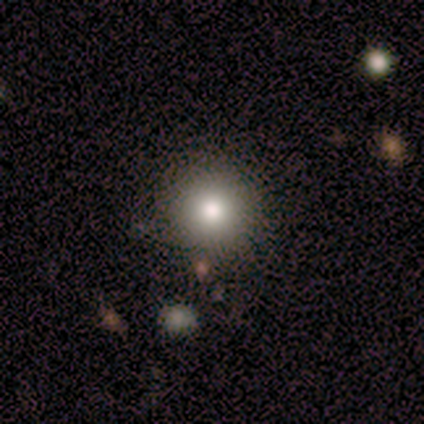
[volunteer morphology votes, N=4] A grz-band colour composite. It shows a smooth galaxy with no disk features (50%, tied with featured or disk) that is round (50%, tied with in between). Merging: none (100%).